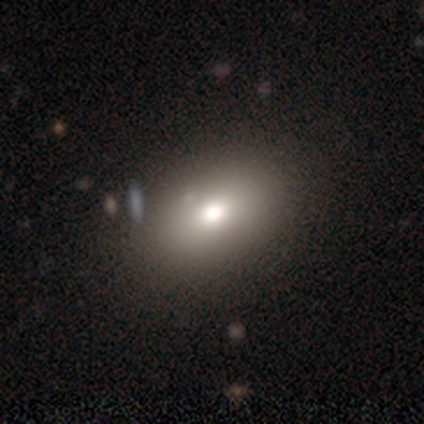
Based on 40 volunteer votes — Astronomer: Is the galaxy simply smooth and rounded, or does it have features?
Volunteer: smooth — 75%.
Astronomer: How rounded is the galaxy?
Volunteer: in between — 80%.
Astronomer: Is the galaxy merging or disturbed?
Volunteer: none — 74%.